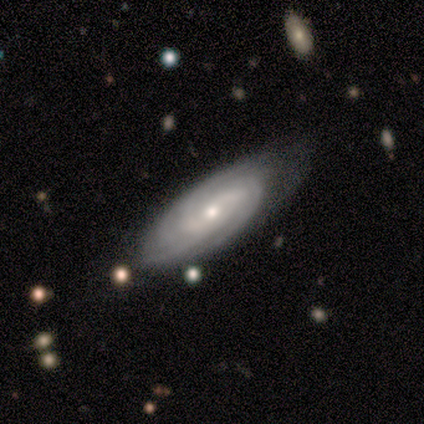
featured or disk 80%, smooth 20%, star or artifact 0%. Down the decision tree: edge-on disk — no (100%); bar — no (75%); spiral arms — yes (100%); spiral arm count — more than 4 (50%); spiral winding — tight (100%); bulge size — small (75%); merging — none (80%).